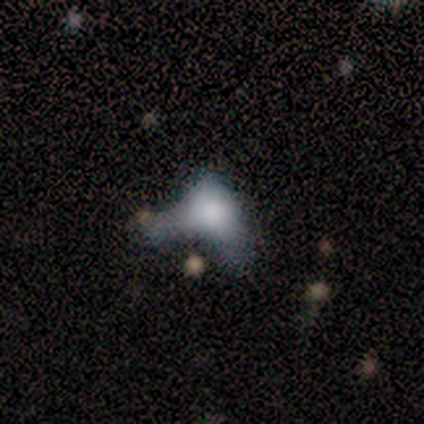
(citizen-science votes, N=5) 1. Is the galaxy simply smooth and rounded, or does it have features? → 60% featured or disk, 40% smooth, 0% star or artifact.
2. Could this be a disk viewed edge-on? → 100% no, 0% yes.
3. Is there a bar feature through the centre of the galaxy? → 100% no, 0% strong, 0% weak.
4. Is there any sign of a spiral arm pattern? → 100% no, 0% yes.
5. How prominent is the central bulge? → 67% none, 33% large, 0% dominant, 0% moderate, 0% small.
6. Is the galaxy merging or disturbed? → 60% major disturbance, 20% none, 20% minor disturbance, 0% merger.